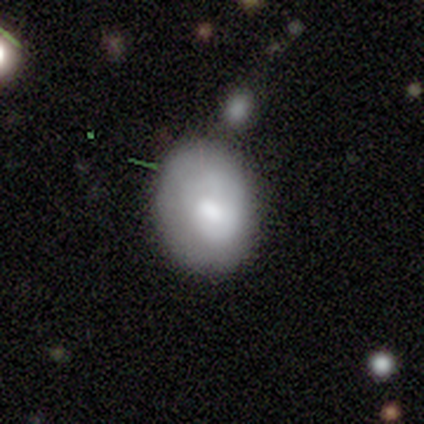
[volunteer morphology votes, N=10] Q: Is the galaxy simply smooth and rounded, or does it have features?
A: smooth — 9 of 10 (90%).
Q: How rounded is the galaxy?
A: round — 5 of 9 (56%).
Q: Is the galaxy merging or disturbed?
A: none — 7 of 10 (70%).